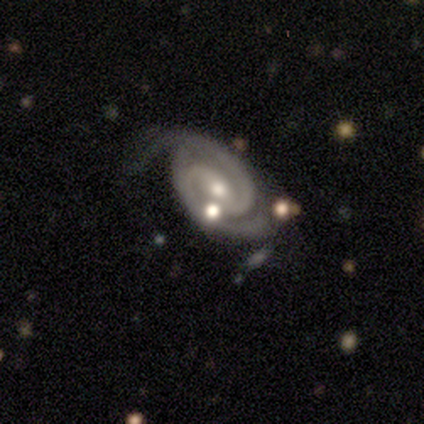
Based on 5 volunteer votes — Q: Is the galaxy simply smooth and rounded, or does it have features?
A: featured or disk — 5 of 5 (100%).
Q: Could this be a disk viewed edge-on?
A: no — 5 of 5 (100%).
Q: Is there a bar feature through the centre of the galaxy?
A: strong — 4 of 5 (80%).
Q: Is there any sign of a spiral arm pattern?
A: yes — 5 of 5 (100%).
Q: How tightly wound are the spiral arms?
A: medium — 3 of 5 (60%).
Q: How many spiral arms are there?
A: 2 — 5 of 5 (100%).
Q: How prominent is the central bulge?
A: moderate — 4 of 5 (80%).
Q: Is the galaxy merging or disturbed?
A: none — 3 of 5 (60%).